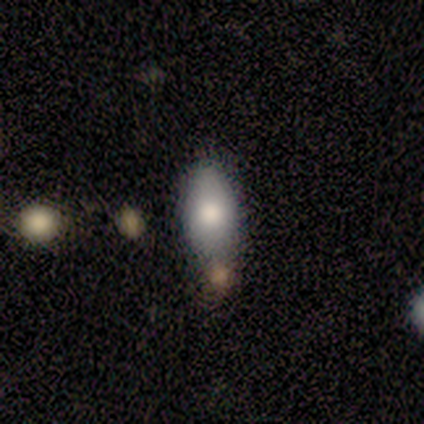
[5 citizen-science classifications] Q: Smooth or featured?
A: smooth (60%); runner-up: star or artifact (40%)
Q: How rounded?
A: in between (67%); runner-up: cigar-shaped (33%)
Q: Merging?
A: none (33%); tied with: minor disturbance (33%); merger (33%)